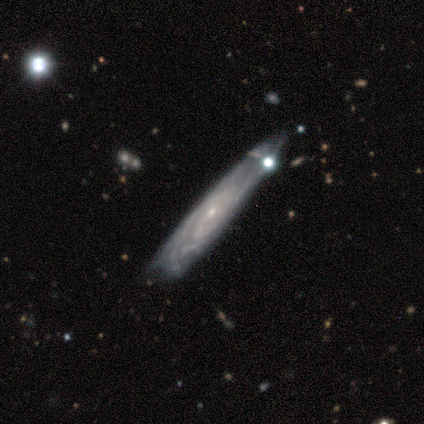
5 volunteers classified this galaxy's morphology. Smooth or featured? 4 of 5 (80%) said featured or disk. Edge-on disk? 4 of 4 (100%) said yes. Edge-on bulge? 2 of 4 (50%, tied with rounded) said none. Merging? 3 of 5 (60%) said minor disturbance.